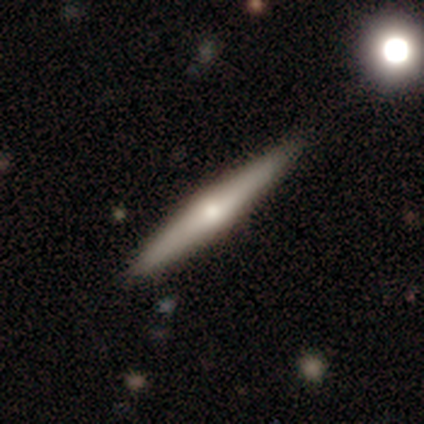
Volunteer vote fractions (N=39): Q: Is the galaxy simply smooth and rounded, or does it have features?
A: featured or disk — 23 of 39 (59%).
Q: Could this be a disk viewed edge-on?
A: yes — 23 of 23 (100%).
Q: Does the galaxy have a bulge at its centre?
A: rounded — 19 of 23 (83%).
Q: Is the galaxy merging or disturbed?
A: none — 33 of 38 (87%).